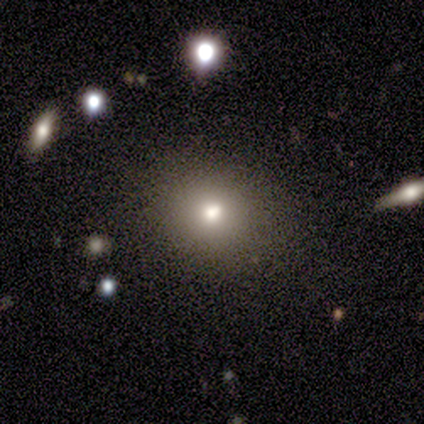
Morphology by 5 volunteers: This is clearly a smooth galaxy (100%). How rounded: likely round (60%). Merging: clearly none (80%).